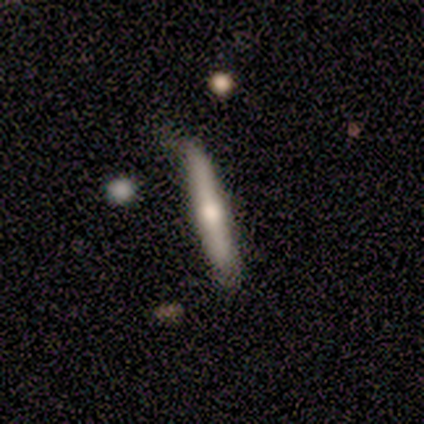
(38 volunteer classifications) This appears to be a featured or disk galaxy (58%) viewed edge-on (95%) with a rounded central bulge (81%). Merging: none (75%).